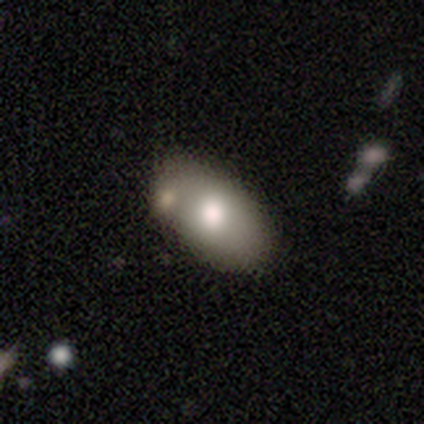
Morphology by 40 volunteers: This appears to be a smooth galaxy with no disk features (72%) that is in between round and cigar-shaped (93%). Merging: none (50%).